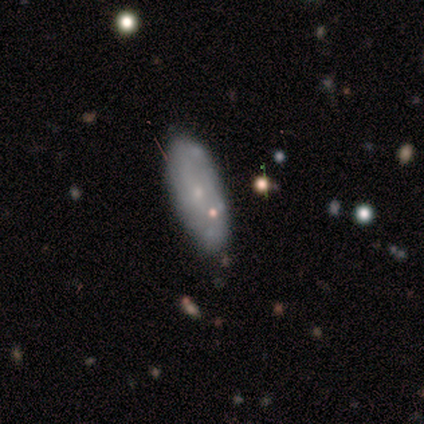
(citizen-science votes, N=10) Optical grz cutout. It shows a featured or disk galaxy (80%) with no bar (88%), no spiral arms (62%) and a small central bulge (75%). Merging: none (70%).